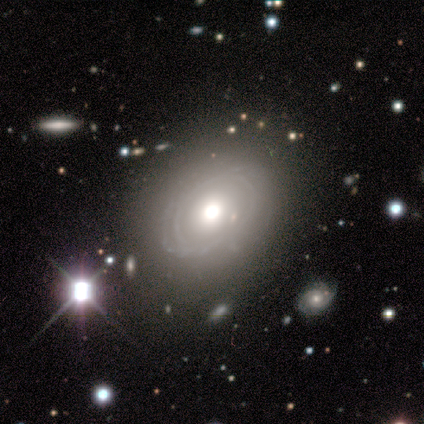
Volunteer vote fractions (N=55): Smooth or featured? 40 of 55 (73%) said featured or disk. Edge-on disk? 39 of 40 (98%) said no. Bar? 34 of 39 (87%) said no. Spiral arms? 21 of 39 (54%) said no. Bulge size? 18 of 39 (46%) said large. Merging? 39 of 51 (76%) said none.